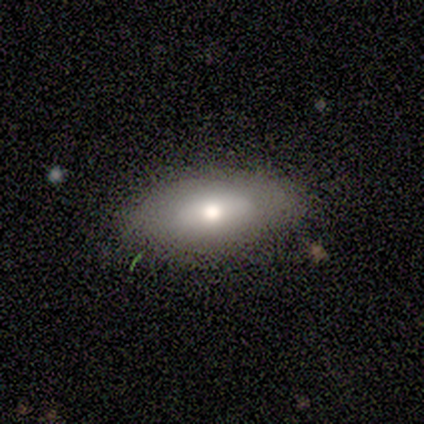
smooth_or_featured: smooth (p=0.75) [alt: featured or disk p=0.25]
how_rounded: in between (p=1.00)
merging: none (p=0.75) [alt: minor disturbance p=0.25]